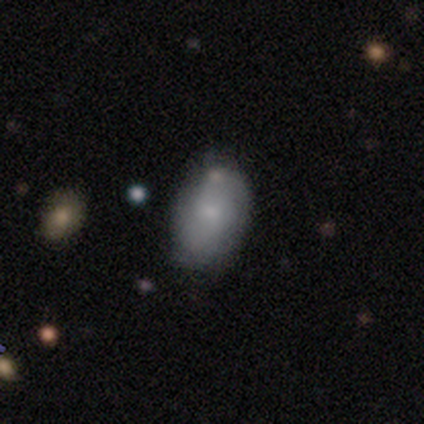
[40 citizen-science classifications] A smooth galaxy with no disk features (70%) that is in between round and cigar-shaped (86%).

Vote fractions:
- Smooth or featured? smooth: 70% / featured or disk: 20% / star or artifact: 10%
- How rounded? in between: 86% / round: 11% / cigar-shaped: 4%
- Merging? none: 67% / minor disturbance: 25% / merger: 8% / major disturbance: 0%